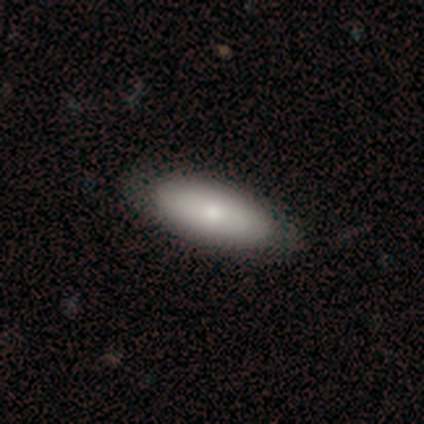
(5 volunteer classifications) Overall: smooth (80%). How rounded: in between (100%). Merging: none (60%; minor disturbance 40%).